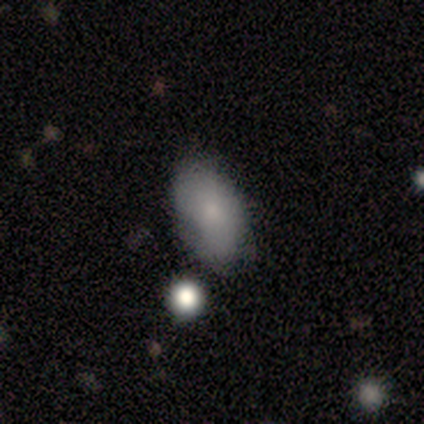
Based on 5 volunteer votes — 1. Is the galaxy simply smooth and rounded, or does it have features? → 80% smooth, 20% star or artifact, 0% featured or disk.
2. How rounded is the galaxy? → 75% in between, 25% round, 0% cigar-shaped.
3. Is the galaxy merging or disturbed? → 50% minor disturbance, 25% none, 25% merger, 0% major disturbance.